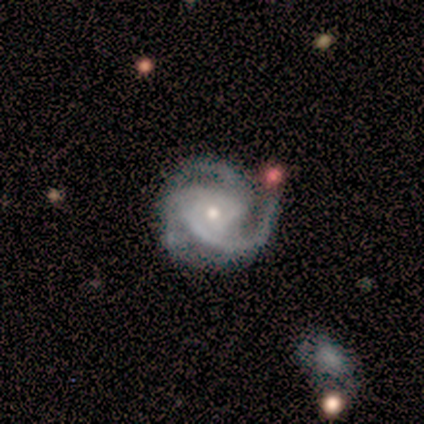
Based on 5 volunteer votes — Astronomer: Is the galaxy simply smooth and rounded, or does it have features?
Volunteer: featured or disk — 100%.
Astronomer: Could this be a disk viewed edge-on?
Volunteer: no — 100%.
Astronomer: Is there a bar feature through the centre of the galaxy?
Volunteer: no — 80%.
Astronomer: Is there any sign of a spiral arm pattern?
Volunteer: yes — 100%.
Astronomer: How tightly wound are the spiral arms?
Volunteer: medium — 60% (runner-up: tight, 40%).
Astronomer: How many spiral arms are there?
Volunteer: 3 — 100%.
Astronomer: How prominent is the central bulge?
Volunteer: small — 100%.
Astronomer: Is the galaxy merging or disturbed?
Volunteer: none — 60% (runner-up: minor disturbance, 40%).